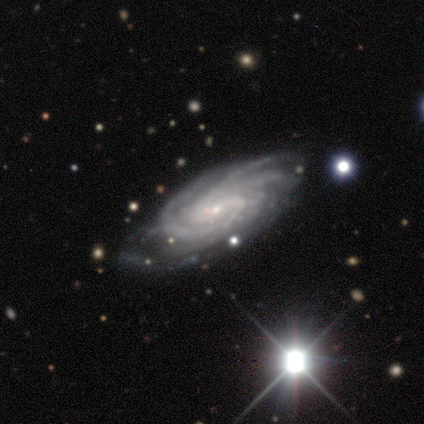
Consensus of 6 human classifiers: Smooth or featured? featured or disk (100%)
Edge-on disk? no (100%)
Bar? weak (67%)
Spiral arms? yes (100%)
Spiral winding? tight (67%)
Spiral arm count? 3 (33%, tied with more than 4)
Bulge size? small (100%)
Merging? none (83%)